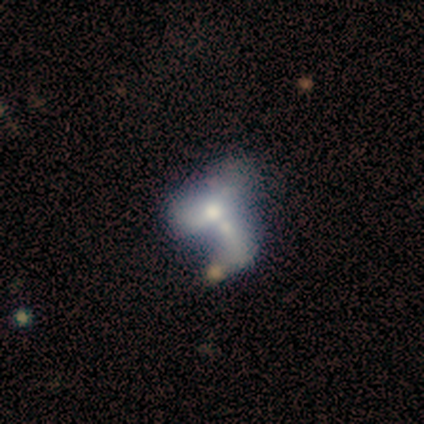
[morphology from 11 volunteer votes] Volunteers were most divided on "bar": no: 60%, weak: 40%, strong: 0%. More confident: spiral arms — no (100%); merging — merger (88%); edge-on disk — no (83%); bulge size — moderate (80%); smooth or featured — featured or disk (55%).